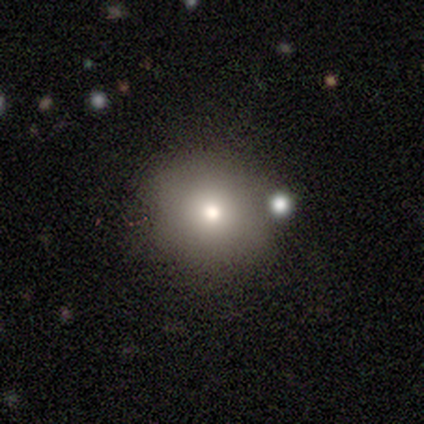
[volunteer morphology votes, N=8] smooth_or_featured: smooth (p=0.75) [alt: featured or disk p=0.12]
how_rounded: round (p=0.83) [alt: in between p=0.17]
merging: none (p=0.71) [alt: minor disturbance p=0.14]